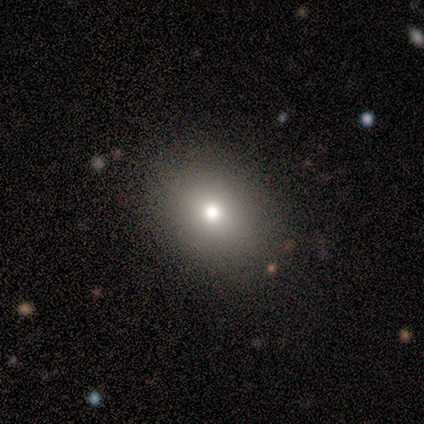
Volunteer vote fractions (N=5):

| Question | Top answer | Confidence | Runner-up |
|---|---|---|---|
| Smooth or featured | smooth | 80% | star or artifact (20%) |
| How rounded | round | 75% | in between (25%) |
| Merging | none | 100% | — |